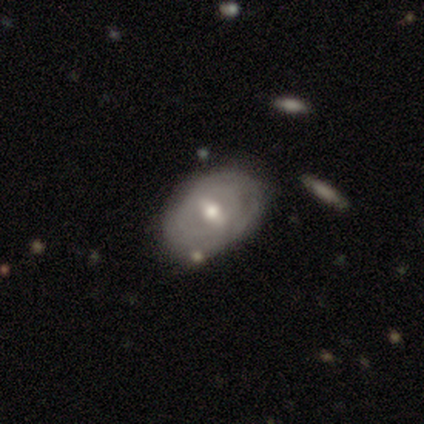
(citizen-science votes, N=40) This appears to be a featured or disk galaxy (60%) with a weak bar (61%), tight (79%) spiral arms (61%) and a moderate central bulge (65%). Merging: none (64%).